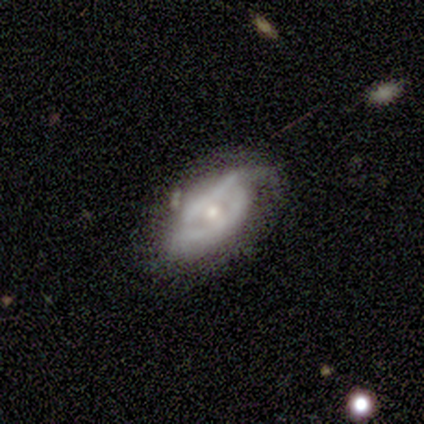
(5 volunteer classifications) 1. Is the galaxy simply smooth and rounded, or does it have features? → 60% featured or disk, 40% smooth, 0% star or artifact.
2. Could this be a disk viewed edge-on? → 100% no, 0% yes.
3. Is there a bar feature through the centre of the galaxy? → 67% no, 33% weak, 0% strong.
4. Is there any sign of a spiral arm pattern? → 100% yes, 0% no.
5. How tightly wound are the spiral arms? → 67% loose, 33% medium, 0% tight.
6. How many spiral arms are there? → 67% 2, 33% 1, 0% 3, 0% 4, 0% more than 4, 0% can't tell.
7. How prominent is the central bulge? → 67% small, 33% moderate, 0% dominant, 0% large, 0% none.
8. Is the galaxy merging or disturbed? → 60% none, 20% minor disturbance, 20% major disturbance, 0% merger.